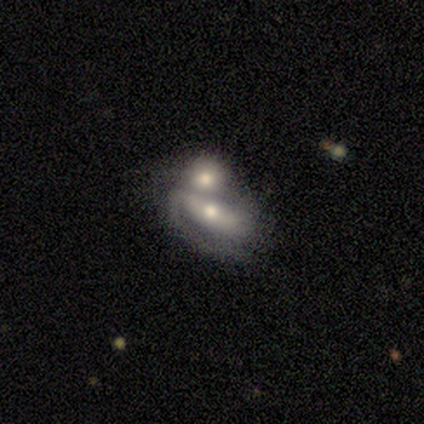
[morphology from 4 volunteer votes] Volunteers were most divided on "bar" (2-way tie): strong: 50%, weak: 50%, no: 0%; "merging" (2-way tie): minor disturbance: 50%, merger: 50%, none: 0%, major disturbance: 0%. More confident: smooth or featured — featured or disk (100%); edge-on disk — no (100%); spiral arms — yes (75%); bulge size — moderate (75%); spiral winding — tight (67%); spiral arm count — 1 (67%).